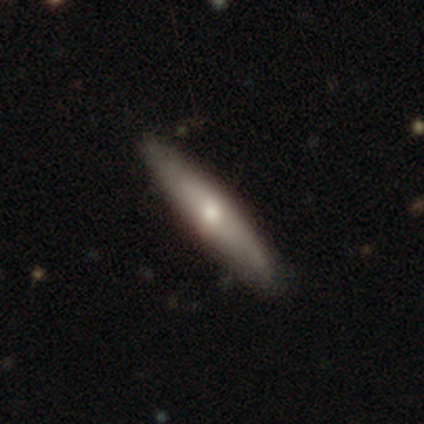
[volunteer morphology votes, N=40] A smooth galaxy with no disk features (60%) that is cigar-shaped (75%).

Vote fractions:
- Smooth or featured? smooth: 60% / featured or disk: 40% / star or artifact: 0%
- How rounded? cigar-shaped: 75% / in between: 25% / round: 0%
- Merging? none: 88% / minor disturbance: 12% / major disturbance: 0% / merger: 0%